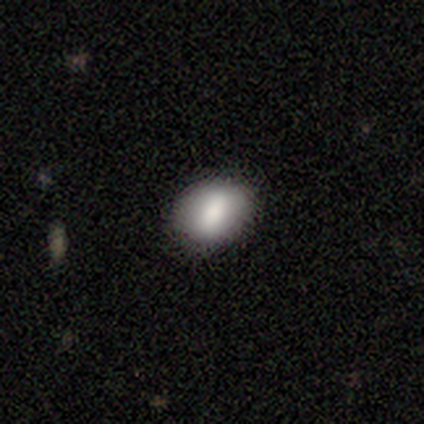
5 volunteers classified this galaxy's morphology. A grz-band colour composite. It shows a smooth galaxy with no disk features (100%) that is in between round and cigar-shaped (60%). Merging: none (100%).